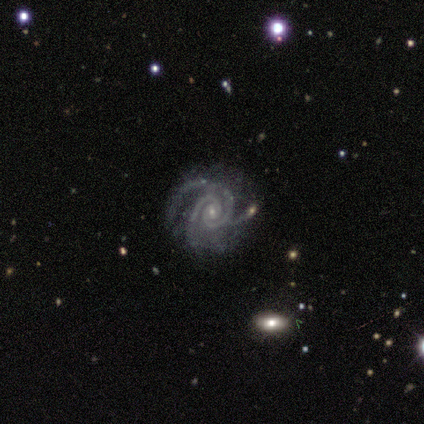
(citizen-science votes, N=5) Smooth or featured? 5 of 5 (100%) said featured or disk. Edge-on disk? 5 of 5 (100%) said no. Bar? 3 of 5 (60%) said weak. Spiral arms? 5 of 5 (100%) said yes. Spiral winding? 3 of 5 (60%) said tight. Spiral arm count? 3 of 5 (60%) said 2. Bulge size? 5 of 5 (100%) said small. Merging? 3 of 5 (60%) said none.